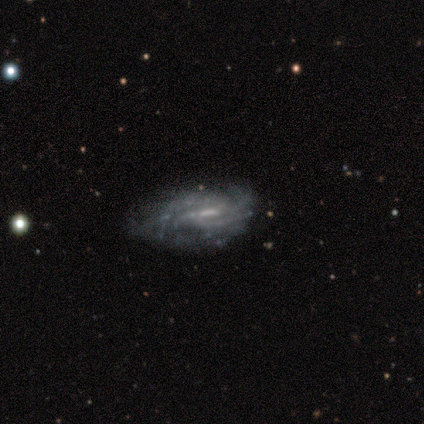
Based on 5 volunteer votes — This appears to be a featured or disk galaxy (100%) with a weak bar (60%), 3 (40%, tied with can't tell) medium (60%) spiral arms (100%) and no central bulge (80%). Merging: minor disturbance (60%).